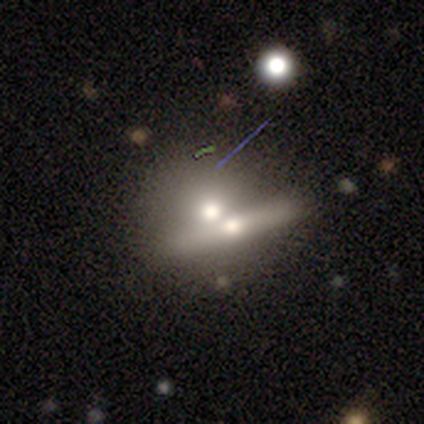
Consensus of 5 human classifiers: This is likely a smooth galaxy (60%). How rounded: clearly round (100%). Merging: possibly none (50%, tied with merger).